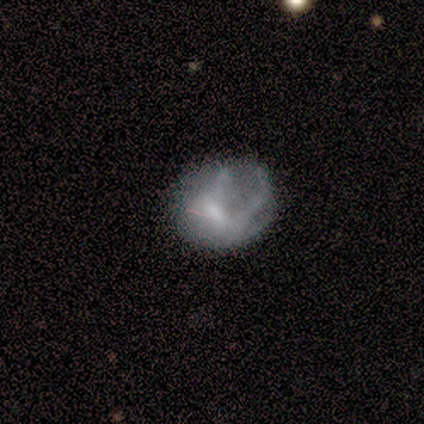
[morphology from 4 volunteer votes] This appears to be a smooth galaxy with no disk features (75%) that is round (67%). Merging: none (67%).